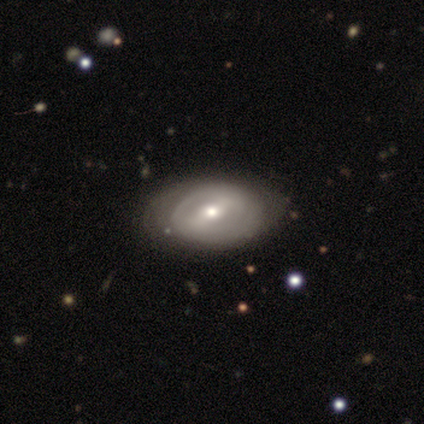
Overall: featured or disk (51%; smooth 43%). Edge-on disk: no (100%). Bar: weak (58%; no 32%). Spiral arms: yes (68%; no 32%). Spiral arm count: 2 (54%; can't tell 46%). Spiral winding: tight (46%; loose 31%). Bulge size: moderate (58%; small 42%). Merging: none (71%).